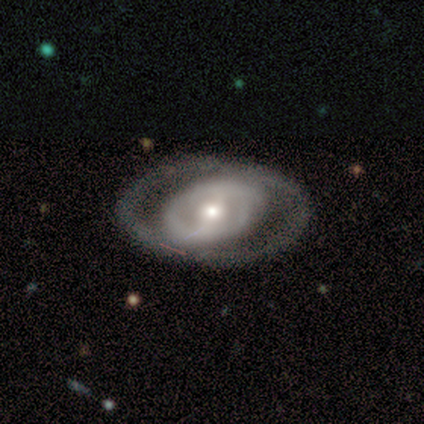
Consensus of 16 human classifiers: featured or disk 88%, smooth 12%, star or artifact 0%. Down the decision tree: edge-on disk — no (100%); bar — weak (50%); spiral arms — yes (71%); spiral arm count — 2 (70%); spiral winding — tight (50%); bulge size — moderate (64%); merging — none (88%).